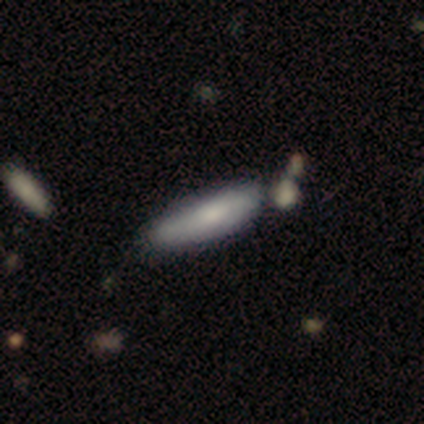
A smooth galaxy with no disk features (80%) that is in between round and cigar-shaped (100%). Merging: none (40%, tied with minor disturbance).